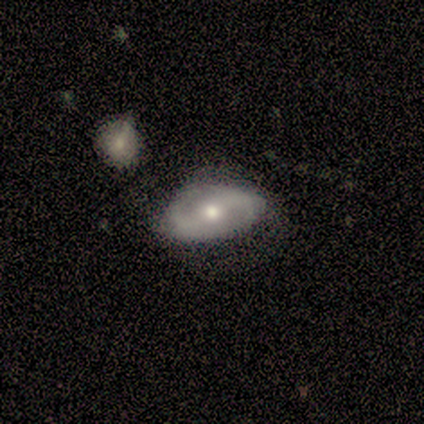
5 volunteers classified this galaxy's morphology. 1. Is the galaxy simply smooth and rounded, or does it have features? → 80% featured or disk, 20% star or artifact, 0% smooth.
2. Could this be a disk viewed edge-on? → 100% no, 0% yes.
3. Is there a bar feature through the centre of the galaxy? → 50% weak (tied), 50% no (tied), 0% strong.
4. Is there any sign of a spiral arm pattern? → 75% yes, 25% no.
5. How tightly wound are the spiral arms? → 33% tight (tied), 33% medium (tied), 33% loose (tied).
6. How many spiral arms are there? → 100% 2, 0% 1, 0% 3, 0% 4, 0% more than 4, 0% can't tell.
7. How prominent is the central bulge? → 75% moderate, 25% small, 0% dominant, 0% large, 0% none.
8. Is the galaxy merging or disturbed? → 100% none, 0% minor disturbance, 0% major disturbance, 0% merger.